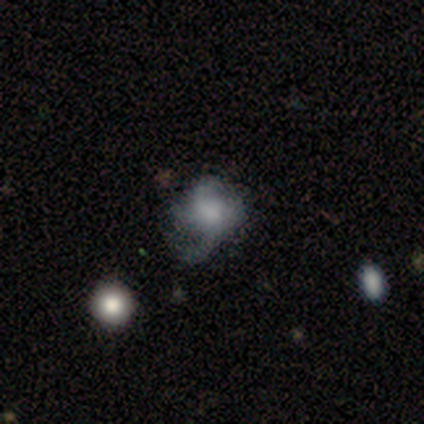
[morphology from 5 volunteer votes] Smooth or featured?
  - featured or disk: 60% *
  - smooth: 40%
  - star or artifact: 0%
Edge-on disk?
  - no: 100% *
  - yes: 0%
Bar?
  - no: 67% *
  - weak: 33%
  - strong: 0%
Spiral arms?
  - yes: 100% *
  - no: 0%
Spiral winding?
  - medium: 67% *
  - loose: 33%
  - tight: 0%
Spiral arm count?
  - 2: 33% * (tied)
  - 3: 33% * (tied)
  - 4: 33% * (tied)
  - 1: 0%
  - more than 4: 0%
  - can't tell: 0%
Bulge size?
  - moderate: 67% *
  - small: 33%
  - dominant: 0%
  - large: 0%
  - none: 0%
Merging?
  - none: 80% *
  - minor disturbance: 20%
  - major disturbance: 0%
  - merger: 0%